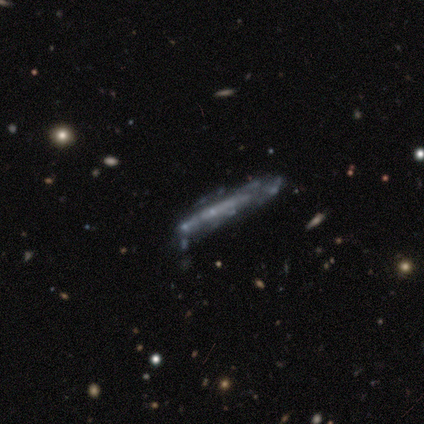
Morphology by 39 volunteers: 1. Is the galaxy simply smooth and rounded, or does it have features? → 82% featured or disk, 10% smooth, 8% star or artifact.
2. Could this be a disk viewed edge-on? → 66% yes, 34% no.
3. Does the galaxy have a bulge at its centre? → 90% none, 5% boxy, 5% rounded.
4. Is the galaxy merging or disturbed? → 42% none, 31% minor disturbance, 19% major disturbance, 8% merger.